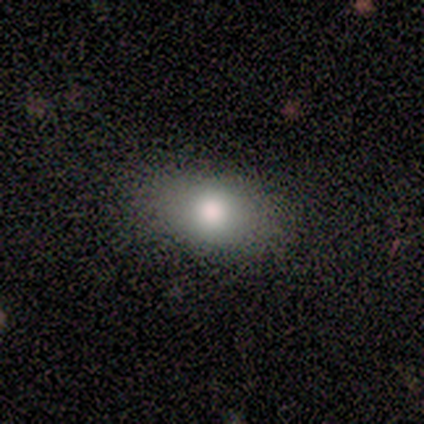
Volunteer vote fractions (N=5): Q: Smooth or featured?
A: smooth (80%); runner-up: featured or disk (20%)
Q: How rounded?
A: in between (100%)
Q: Merging?
A: none (100%)